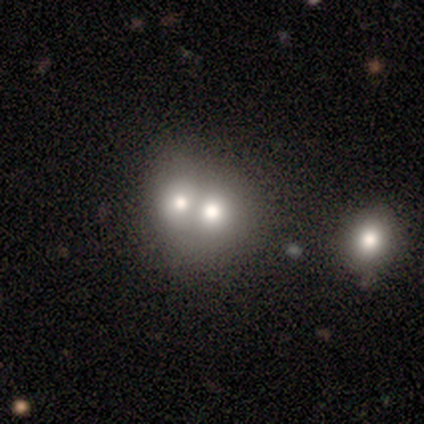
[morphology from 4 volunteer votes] Smooth or featured?
  - smooth: 75% *
  - featured or disk: 25%
  - star or artifact: 0%
How rounded?
  - round: 100% *
  - in between: 0%
  - cigar-shaped: 0%
Merging?
  - merger: 75% *
  - none: 25%
  - minor disturbance: 0%
  - major disturbance: 0%